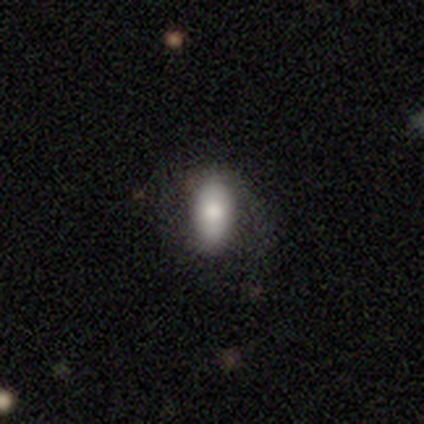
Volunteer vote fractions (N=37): Q: Smooth or featured?
A: smooth (86%); runner-up: featured or disk (11%)
Q: How rounded?
A: in between (88%); runner-up: cigar-shaped (12%)
Q: Merging?
A: none (56%); runner-up: major disturbance (25%)